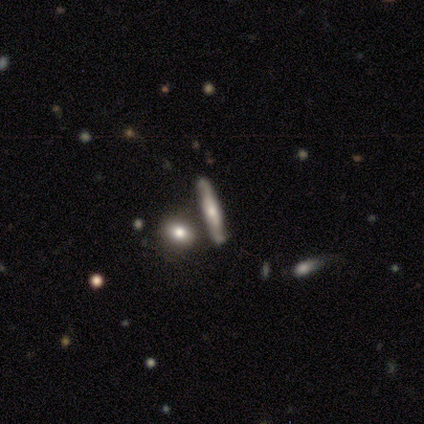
smooth_or_featured: smooth (p=0.50) [tied with: featured or disk p=0.50]
how_rounded: round (p=0.50) [tied with: cigar-shaped p=0.50]
merging: none (p=1.00)